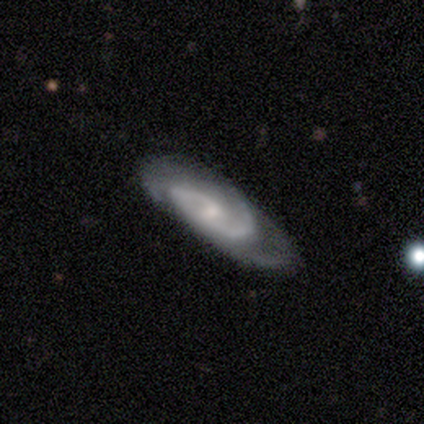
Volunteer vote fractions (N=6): Volunteers were most divided on "merging": none: 50%, minor disturbance: 33%, major disturbance: 17%, merger: 0%. More confident: smooth or featured — featured or disk (100%); spiral arms — yes (100%); edge-on disk — no (83%); bar — weak (80%); spiral arm count — 2 (80%); bulge size — small (60%); spiral winding — medium (60%).